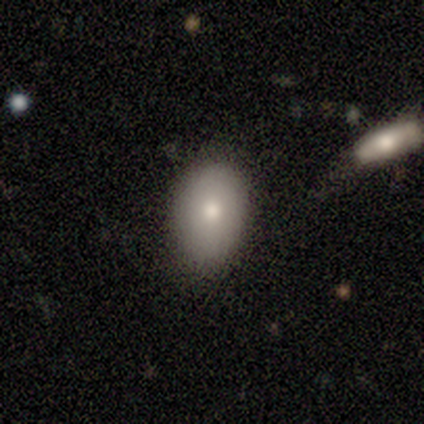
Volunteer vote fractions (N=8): smooth-or-featured: smooth: 100% | featured or disk: 0% | star or artifact: 0%
  how-rounded: in between: 75% | round: 25% | cigar-shaped: 0%
  merging: none: 75% | minor disturbance: 12% | major disturbance: 12% | merger: 0%